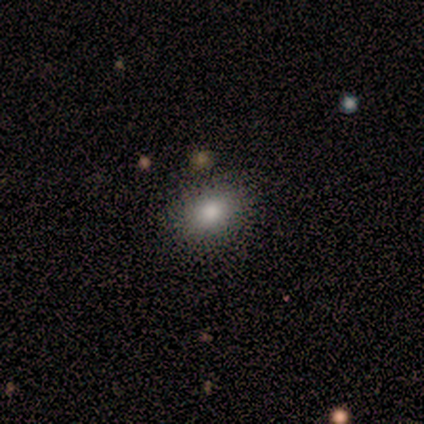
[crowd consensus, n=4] Morphology: type=star or artifact (75%).